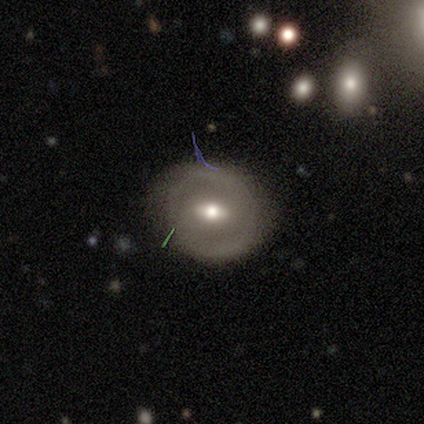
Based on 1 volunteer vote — A featured or disk galaxy (100%) with a weak bar (100%), 2 (100%) medium (100%) spiral arms (100%) and a moderate central bulge (100%). Merging: none (100%).